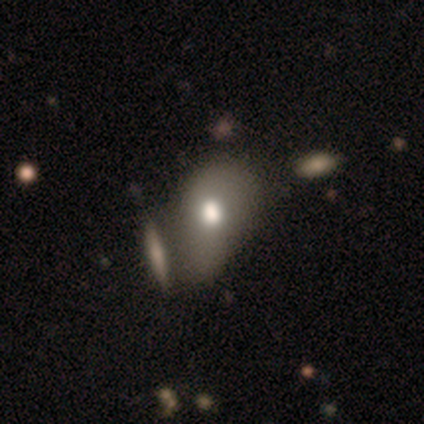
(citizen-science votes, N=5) Smooth or featured? 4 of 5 (80%) said smooth. How rounded? 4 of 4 (100%) said in between. Merging? 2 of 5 (40%, tied with merger) said none.